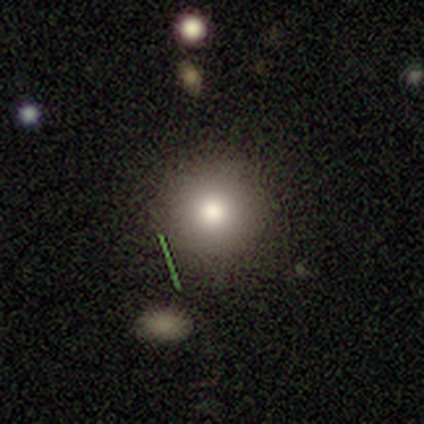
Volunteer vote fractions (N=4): smooth_or_featured: smooth (p=0.50) [alt: featured or disk p=0.25]
how_rounded: round (p=1.00)
merging: none (p=1.00)